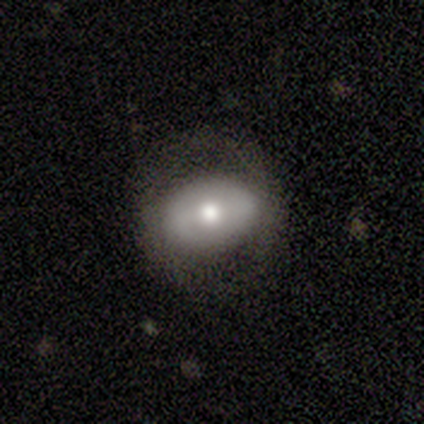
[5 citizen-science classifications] Smooth or featured? 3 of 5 (60%) said featured or disk. Edge-on disk? 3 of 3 (100%) said no. Bar? 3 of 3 (100%) said weak. Spiral arms? 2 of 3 (67%) said no. Bulge size? 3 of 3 (100%) said moderate. Merging? 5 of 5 (100%) said none.